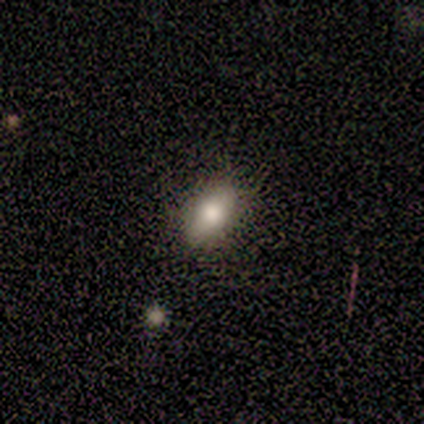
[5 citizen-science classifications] This appears to be a smooth galaxy with no disk features (60%) that is in between round and cigar-shaped (67%). Merging: none (100%).